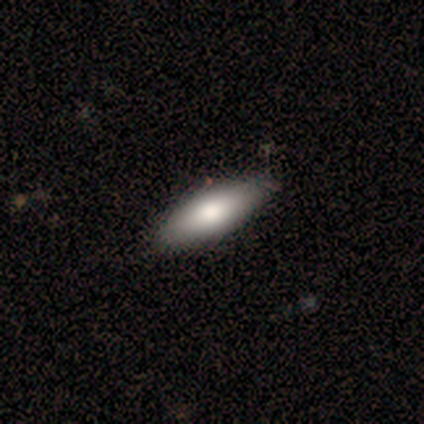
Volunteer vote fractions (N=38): smooth-or-featured: smooth: 87% | star or artifact: 8% | featured or disk: 5%
  how-rounded: in between: 61% | cigar-shaped: 39% | round: 0%
  merging: none: 66% | minor disturbance: 9% | major disturbance: 0% | merger: 0%